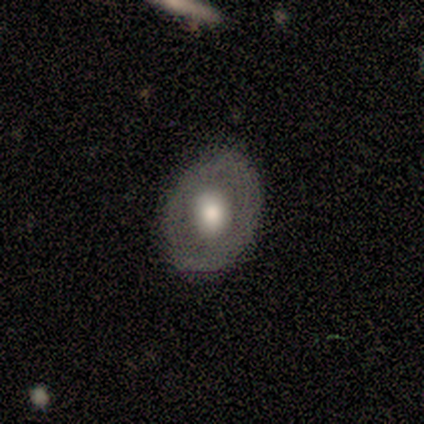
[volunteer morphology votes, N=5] Smooth or featured? smooth (80%)
How rounded? round (50%, tied with in between)
Merging? none (80%)